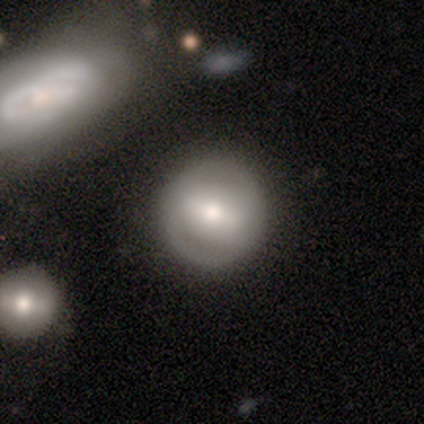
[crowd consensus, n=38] Overall: featured or disk (53%; smooth 42%). Edge-on disk: no (100%). Bar: weak (55%; strong 30%). Spiral arms: no (55%; yes 45%). Bulge size: moderate (50%; large 25%). Merging: none (78%).